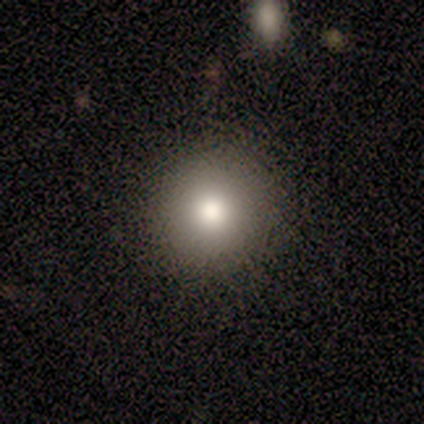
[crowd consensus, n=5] smooth 80%, star or artifact 20%, featured or disk 0%. Down the decision tree: how rounded — round (75%); merging — none (100%).